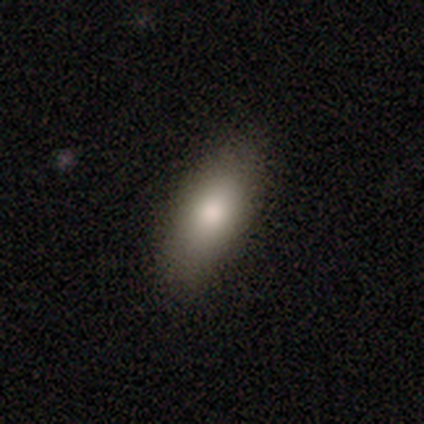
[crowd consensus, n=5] Smooth or featured?
  - smooth: 100% *
  - featured or disk: 0%
  - star or artifact: 0%
How rounded?
  - in between: 100% *
  - round: 0%
  - cigar-shaped: 0%
Merging?
  - none: 100% *
  - minor disturbance: 0%
  - major disturbance: 0%
  - merger: 0%